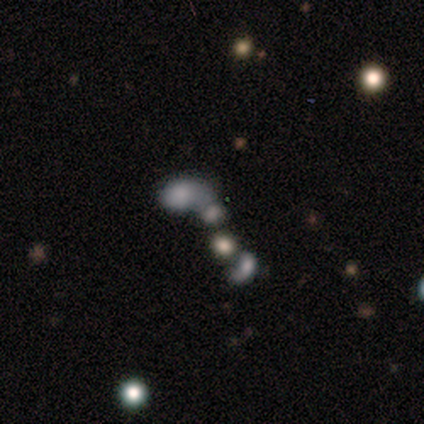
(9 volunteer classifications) This is likely a smooth galaxy (78%). How rounded: clearly in between (86%). Merging: likely merger (67%).